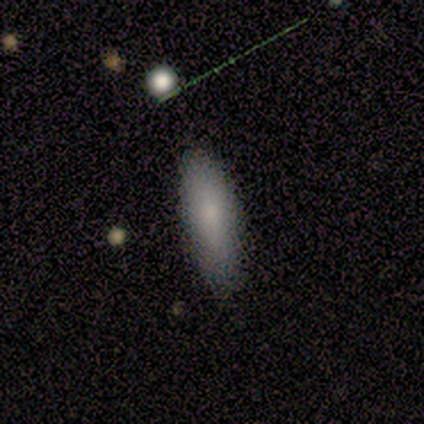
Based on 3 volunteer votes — Smooth or featured? smooth (67%)
How rounded? in between (50%, tied with cigar-shaped)
Merging? none (67%)